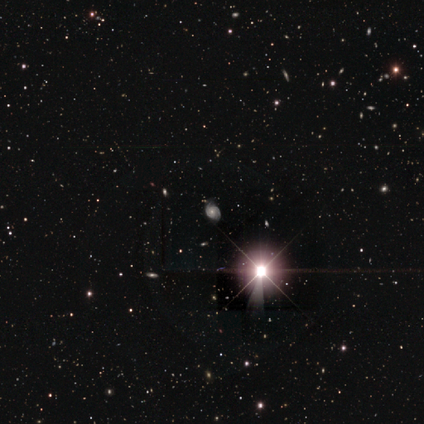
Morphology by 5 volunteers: Q: Smooth or featured?
A: featured or disk (80%); runner-up: star or artifact (20%)
Q: Edge-on disk?
A: no (100%)
Q: Bar?
A: weak (50%); tied with: no (50%)
Q: Spiral arms?
A: yes (100%)
Q: Spiral winding?
A: tight (50%); tied with: medium (50%)
Q: Spiral arm count?
A: 2 (75%); runner-up: can't tell (25%)
Q: Bulge size?
A: small (75%); runner-up: moderate (25%)
Q: Merging?
A: none (100%)